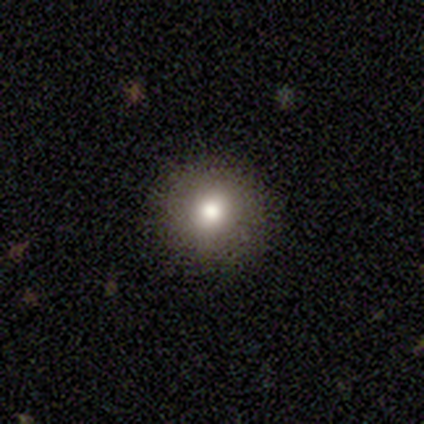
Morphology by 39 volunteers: Smooth or featured? 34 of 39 (87%) said smooth. How rounded? 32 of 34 (94%) said round. Merging? 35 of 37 (95%) said none.